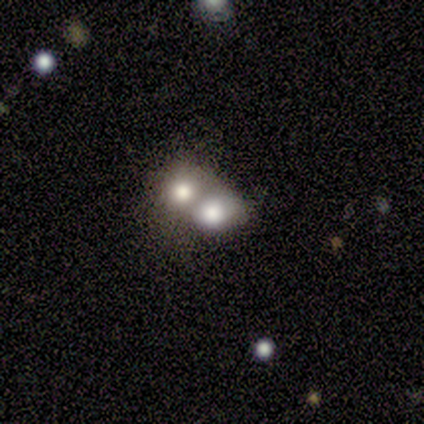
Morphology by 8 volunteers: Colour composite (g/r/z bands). It shows a smooth galaxy with no disk features (50%) that is round (50%, tied with in between). Merging: merger (80%).